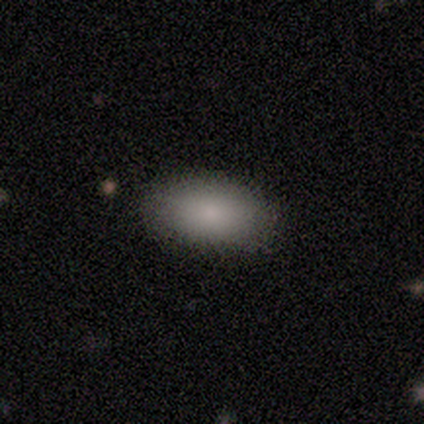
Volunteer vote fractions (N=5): smooth 100%, featured or disk 0%, star or artifact 0%. Down the decision tree: how rounded — in between (80%); merging — none (100%).